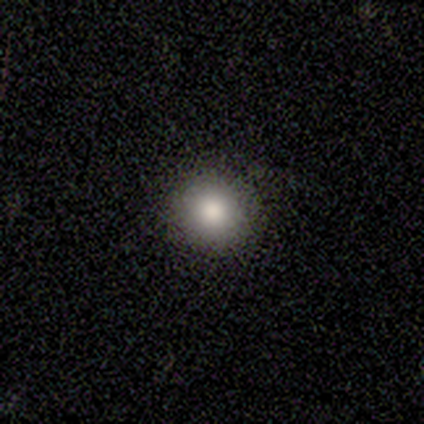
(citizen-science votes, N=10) Smooth or featured? 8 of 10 (80%) said smooth. How rounded? 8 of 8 (100%) said round. Merging? 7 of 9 (78%) said none.